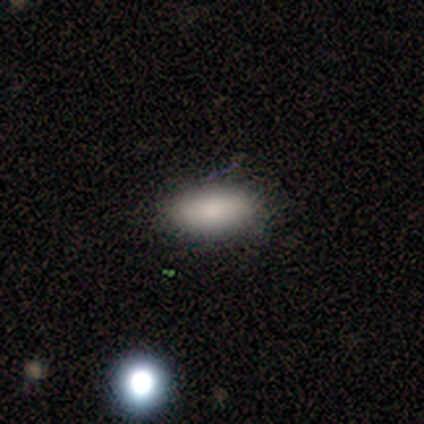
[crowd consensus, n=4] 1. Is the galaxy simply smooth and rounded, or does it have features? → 75% smooth, 25% star or artifact, 0% featured or disk.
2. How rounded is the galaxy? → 67% in between, 33% cigar-shaped, 0% round.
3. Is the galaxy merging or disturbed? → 100% none, 0% minor disturbance, 0% major disturbance, 0% merger.